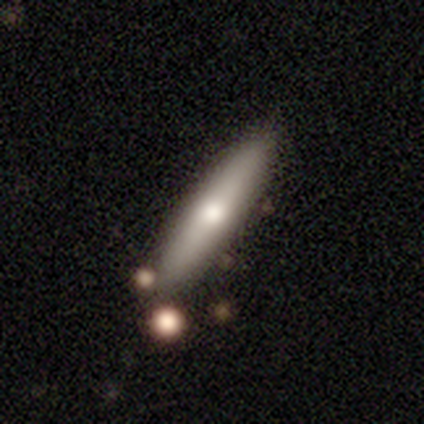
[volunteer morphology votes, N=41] Smooth or featured? 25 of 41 (61%) said smooth. How rounded? 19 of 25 (76%) said cigar-shaped. Merging? 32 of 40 (80%) said none.